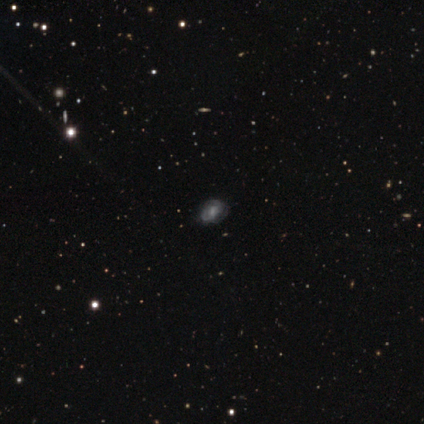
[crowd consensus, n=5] Morphology: type=featured or disk (60%); edge-on=no (100%); bar=weak (100%); spiral arms=yes (100%); winding=tight (67%); arm count=can't tell (100%); bulge=moderate (67%); merging=none (60%).